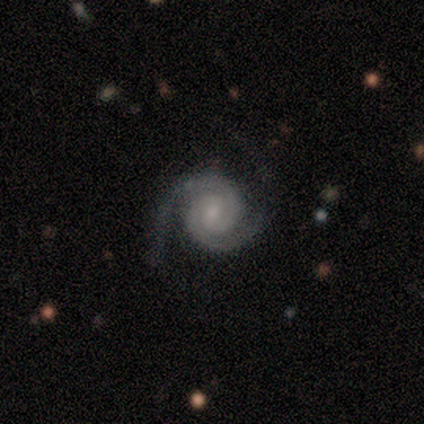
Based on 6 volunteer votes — Volunteers were most divided on "bar" (2-way tie): weak: 50%, no: 50%, strong: 0%. More confident: smooth or featured — featured or disk (100%); edge-on disk — no (100%); spiral arms — yes (100%); spiral arm count — 2 (100%); bulge size — small (100%); merging — none (100%); spiral winding — tight (67%).